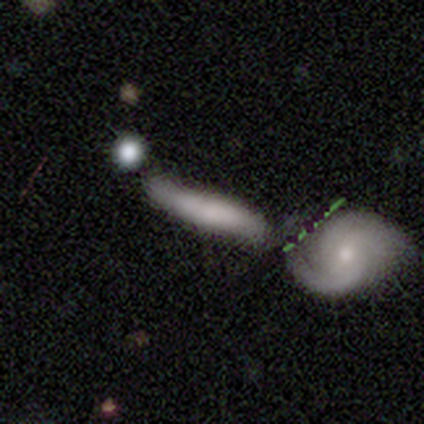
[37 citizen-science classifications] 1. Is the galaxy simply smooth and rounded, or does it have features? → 76% smooth, 19% featured or disk, 5% star or artifact.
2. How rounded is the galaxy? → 82% cigar-shaped, 11% in between, 7% round.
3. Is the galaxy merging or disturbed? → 60% merger, 0% none, 0% minor disturbance, 0% major disturbance.